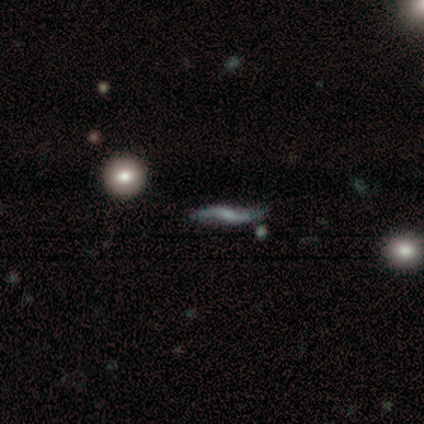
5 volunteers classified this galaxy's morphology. smooth_or_featured: featured or disk (p=0.60) [alt: smooth p=0.20]
disk_edge_on: no (p=0.67) [alt: yes p=0.33]
bar: strong (p=0.50) [tied with: weak p=0.50]
has_spiral_arms: yes (p=1.00)
spiral_winding: loose (p=1.00)
spiral_arm_count: 2 (p=1.00)
bulge_size: moderate (p=0.50) [tied with: none p=0.50]
merging: none (p=0.50) [alt: minor disturbance p=0.25]